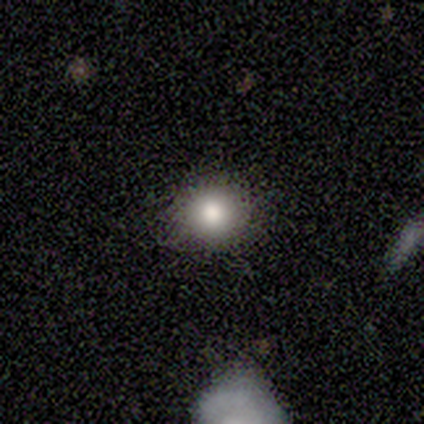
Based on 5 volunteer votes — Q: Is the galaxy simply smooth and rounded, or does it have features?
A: smooth — 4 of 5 (80%).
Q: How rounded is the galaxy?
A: round — 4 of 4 (100%).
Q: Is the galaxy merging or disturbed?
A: none — 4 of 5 (80%).